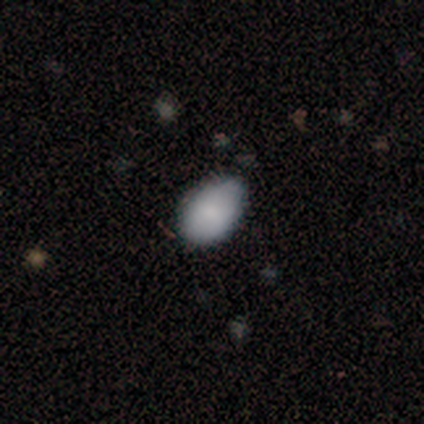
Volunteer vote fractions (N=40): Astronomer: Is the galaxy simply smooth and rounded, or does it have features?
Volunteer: smooth — 88%.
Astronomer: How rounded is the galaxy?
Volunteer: in between — 89%.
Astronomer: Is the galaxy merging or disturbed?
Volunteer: none — 56%.